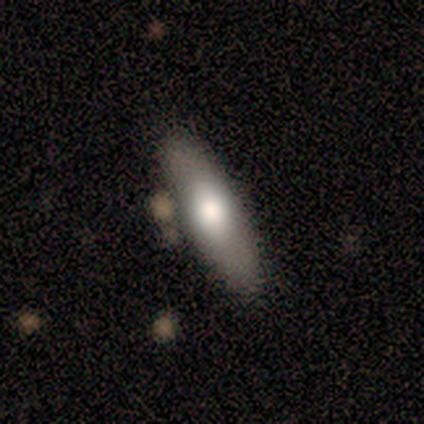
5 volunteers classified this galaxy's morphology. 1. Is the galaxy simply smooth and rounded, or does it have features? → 60% smooth, 20% featured or disk, 20% star or artifact.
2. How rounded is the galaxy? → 100% cigar-shaped, 0% round, 0% in between.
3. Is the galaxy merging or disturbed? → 75% minor disturbance, 25% merger, 0% none, 0% major disturbance.